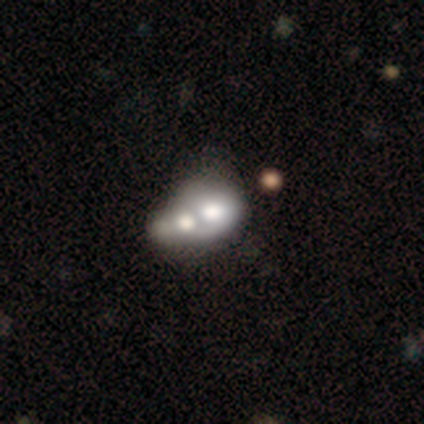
smooth 66%, featured or disk 29%, star or artifact 5%. Down the decision tree: how rounded — in between (67%); merging — merger (67%).